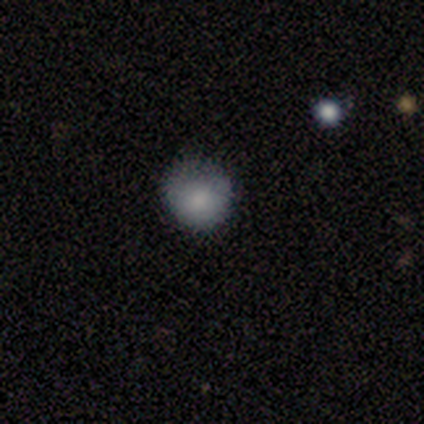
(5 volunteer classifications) A smooth galaxy with no disk features (80%) that is round (50%, tied with in between). Merging: none (100%).